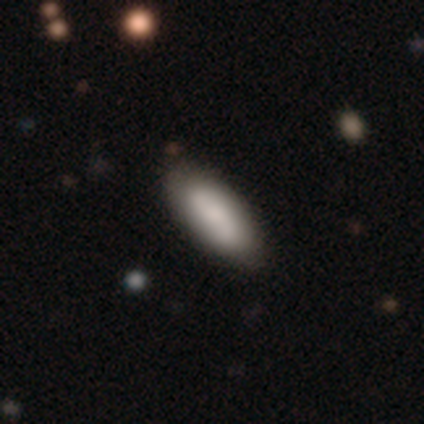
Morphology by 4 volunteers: Smooth or featured? 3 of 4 (75%) said smooth. How rounded? 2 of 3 (67%) said in between. Merging? 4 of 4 (100%) said none.